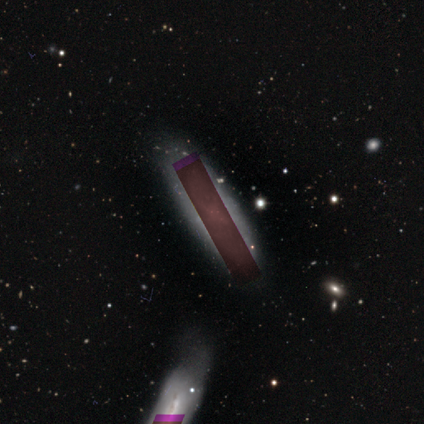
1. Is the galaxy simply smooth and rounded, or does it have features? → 80% star or artifact, 20% smooth, 0% featured or disk.